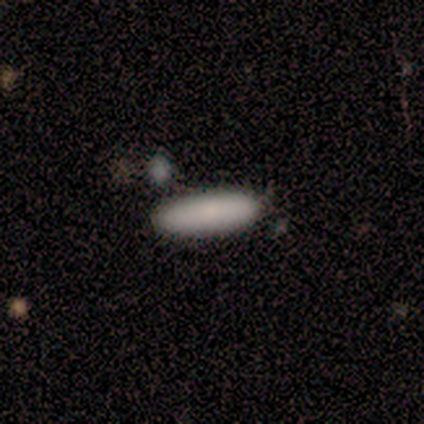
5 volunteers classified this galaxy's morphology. Overall: smooth (100%). How rounded: cigar-shaped (100%). Merging: none (80%).